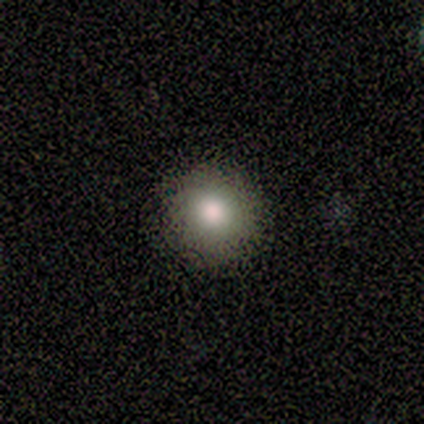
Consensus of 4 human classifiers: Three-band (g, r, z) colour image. It shows a star or artifact, not a galaxy (75%).